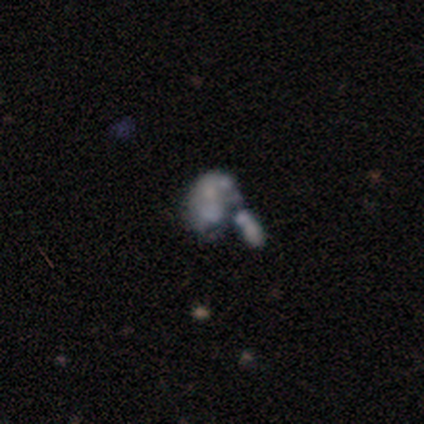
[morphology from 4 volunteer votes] Volunteers were most divided on "merging" (2-way tie): major disturbance: 50%, merger: 50%, none: 0%, minor disturbance: 0%. More confident: smooth or featured — featured or disk (100%); edge-on disk — no (100%); bar — no (100%); spiral arms — no (100%); bulge size — none (75%).